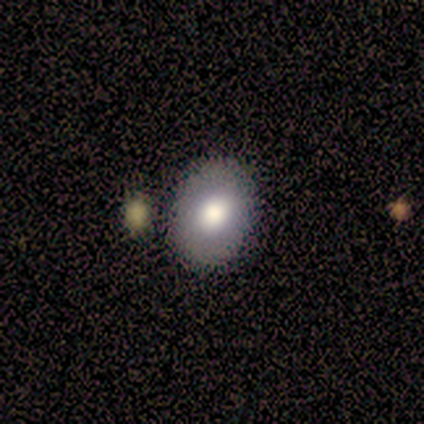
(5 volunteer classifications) A smooth galaxy with no disk features (60%) that is in between round and cigar-shaped (67%). Merging: none (75%).